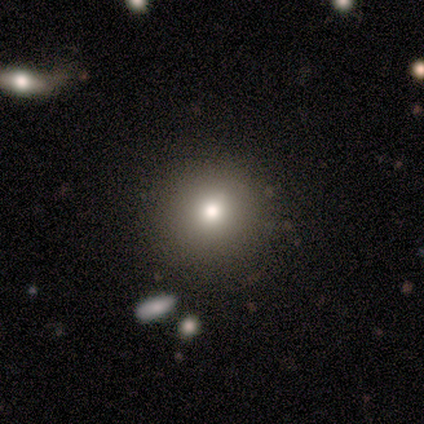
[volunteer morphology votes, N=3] Smooth or featured: smooth — 100%
How rounded: round — 100%
Merging: none — 100%